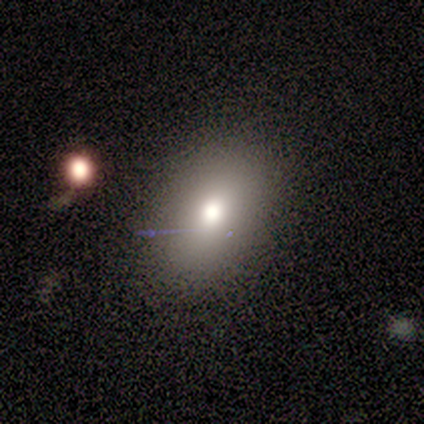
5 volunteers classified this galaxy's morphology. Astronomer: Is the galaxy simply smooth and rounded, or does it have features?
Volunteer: smooth — 80%.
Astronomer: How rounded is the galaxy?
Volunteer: in between — 75%.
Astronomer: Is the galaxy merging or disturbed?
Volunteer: none — 100%.